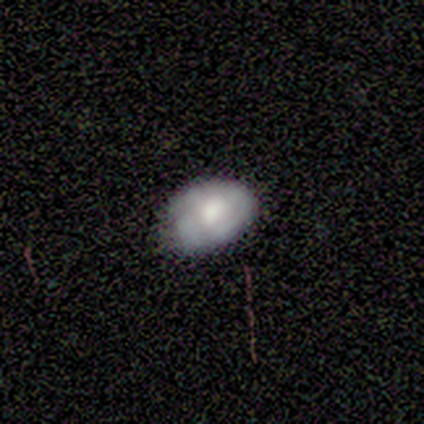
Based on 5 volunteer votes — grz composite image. It shows a smooth galaxy with no disk features (60%) that is in between round and cigar-shaped (100%). Merging: none (50%, tied with minor disturbance).